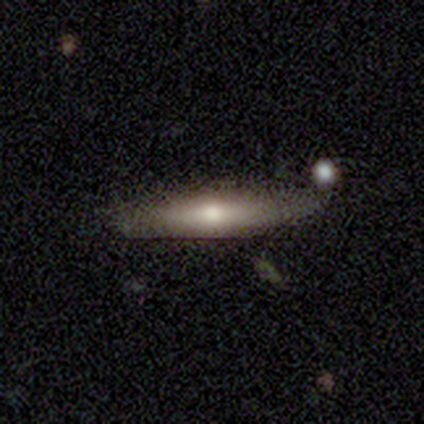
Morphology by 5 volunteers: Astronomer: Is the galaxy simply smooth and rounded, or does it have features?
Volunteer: smooth — 60%.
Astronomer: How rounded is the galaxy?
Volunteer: cigar-shaped — 67%.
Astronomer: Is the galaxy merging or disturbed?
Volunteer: none — 50%, tied with minor disturbance at 50%.